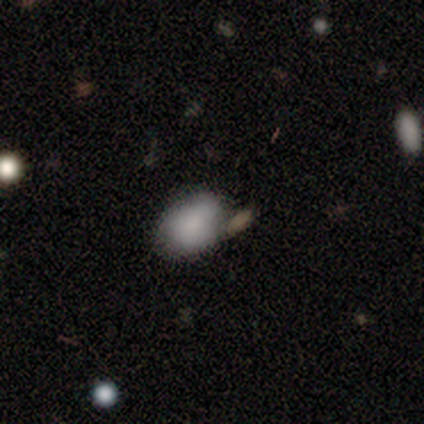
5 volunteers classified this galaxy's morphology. Smooth or featured? 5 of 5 (100%) said smooth. How rounded? 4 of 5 (80%) said in between. Merging? 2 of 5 (40%, tied with minor disturbance) said none.